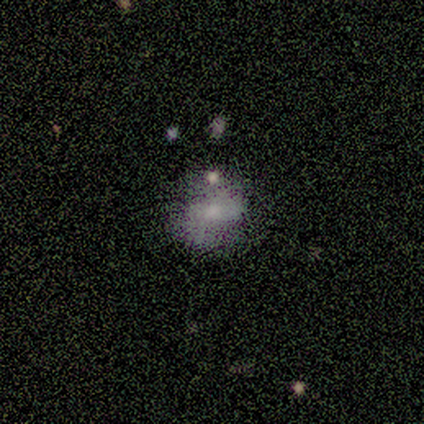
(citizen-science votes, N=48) A featured or disk galaxy (54%) with a weak bar (38%), 2 (87%) medium (40%) spiral arms (58%) and a moderate central bulge (46%). Merging: none (38%).